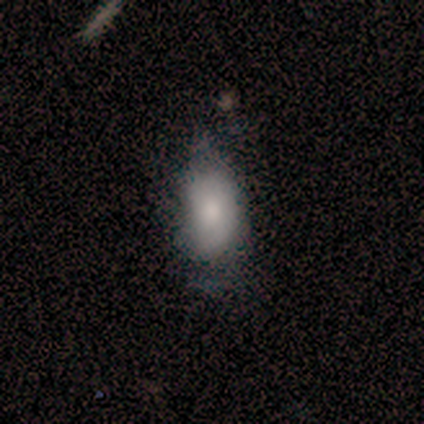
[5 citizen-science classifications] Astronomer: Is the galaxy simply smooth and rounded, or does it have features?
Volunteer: smooth — 100%.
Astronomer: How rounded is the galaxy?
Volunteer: in between — 100%.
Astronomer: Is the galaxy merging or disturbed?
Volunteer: minor disturbance — 60% (runner-up: none, 40%).